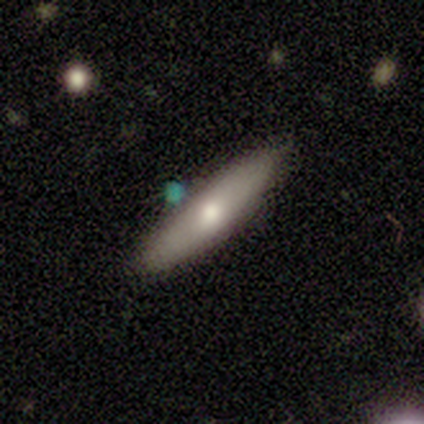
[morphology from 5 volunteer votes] type=featured or disk (60%); edge-on=no (67%); bar=no (100%); spiral arms=yes (50%, tied with no); winding=tight (100%); arm count=2 (100%); bulge=moderate (50%, tied with small); merging=none (100%).